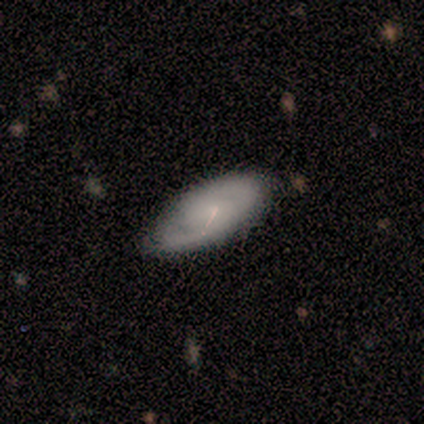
This appears to be a featured or disk galaxy (100%) with no bar (80%), 2 (60%) tight (60%) spiral arms (100%) and no central bulge (60%). Merging: none (80%).